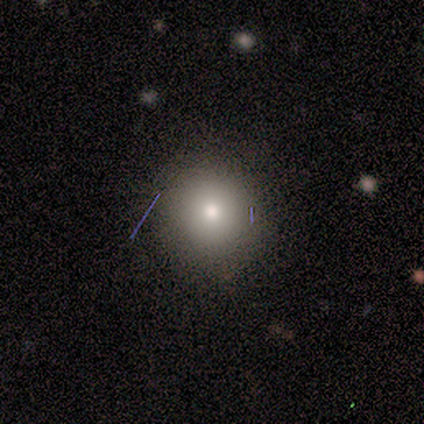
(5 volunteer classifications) Q: Smooth or featured?
A: smooth (60%); runner-up: featured or disk (20%)
Q: How rounded?
A: round (100%)
Q: Merging?
A: none (100%)